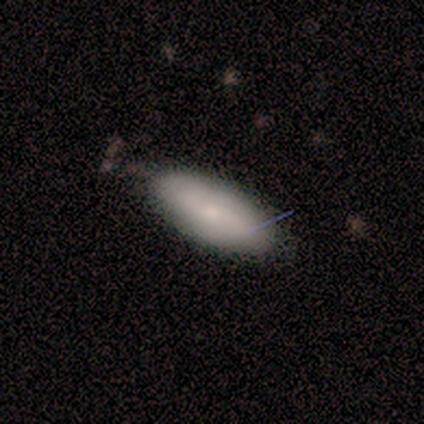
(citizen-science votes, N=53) A smooth galaxy with no disk features (75%) that is in between round and cigar-shaped (85%).

Vote fractions:
- Smooth or featured? smooth: 75% / featured or disk: 19% / star or artifact: 6%
- How rounded? in between: 85% / cigar-shaped: 12% / round: 2%
- Merging? none: 68% / minor disturbance: 28% / major disturbance: 2% / merger: 2%